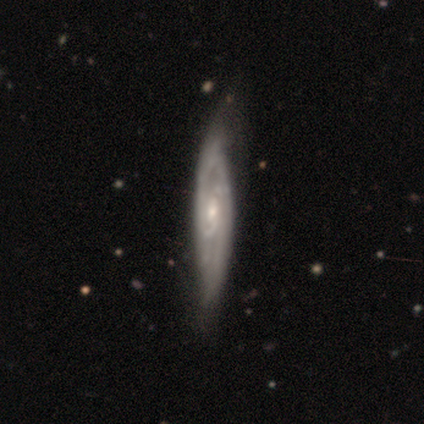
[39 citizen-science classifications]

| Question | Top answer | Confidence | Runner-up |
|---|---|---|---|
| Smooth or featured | featured or disk | 85% | smooth (13%) |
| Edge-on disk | no | 88% | yes (12%) |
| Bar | no | 59% | weak (34%) |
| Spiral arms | yes | 93% | no (7%) |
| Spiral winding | tight | 85% | medium (15%) |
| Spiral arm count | can't tell | 48% | 2 (22%) |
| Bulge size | small | 62% | moderate (38%) |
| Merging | none | 45% | minor disturbance (5%) |